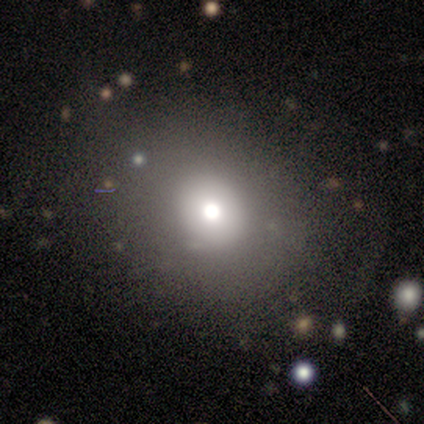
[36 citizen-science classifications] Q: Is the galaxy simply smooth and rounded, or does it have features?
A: smooth — 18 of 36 (50%).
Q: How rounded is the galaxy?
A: round — 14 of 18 (78%).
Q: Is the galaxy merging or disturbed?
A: none — 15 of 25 (60%).